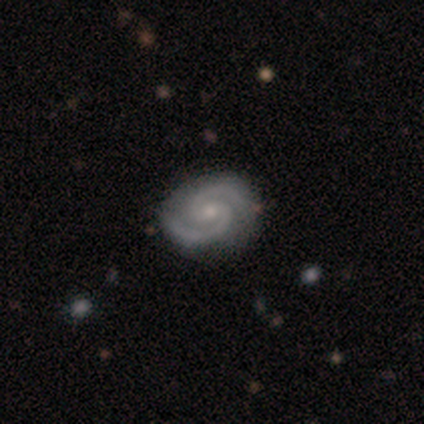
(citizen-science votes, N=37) featured or disk 92%, star or artifact 5%, smooth 3%. Down the decision tree: edge-on disk — no (100%); bar — weak (50%); spiral arms — yes (97%); spiral arm count — 2 (97%); spiral winding — medium (58%); bulge size — small (65%); merging — none (91%).